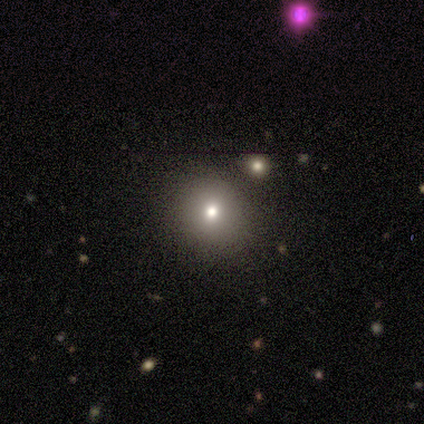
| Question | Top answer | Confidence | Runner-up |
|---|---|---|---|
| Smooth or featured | smooth | 64% | featured or disk (27%) |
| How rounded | round | 86% | in between (14%) |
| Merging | none | 70% | minor disturbance (20%) |